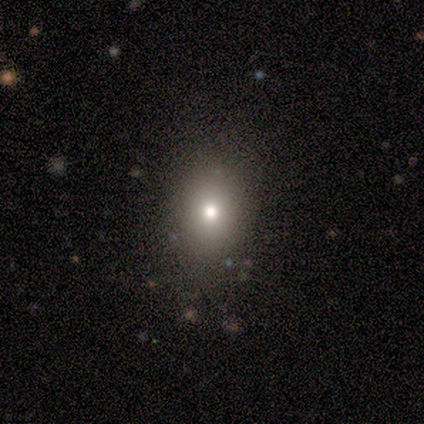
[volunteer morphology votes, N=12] type=smooth (58%); roundness=in between (57%); merging=none (100%).